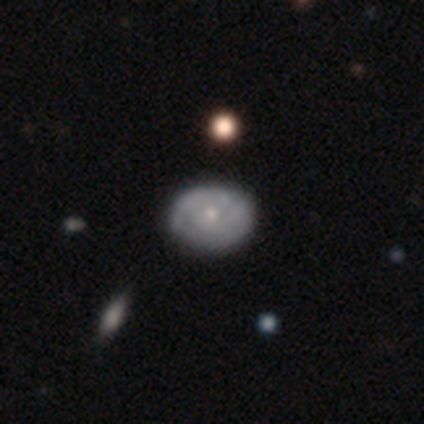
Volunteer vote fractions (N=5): Smooth or featured: featured or disk — 60% (smooth — 40%)
Edge-on disk: no — 67% (yes — 33%)
Bar: no — 100%
Spiral arms: yes — 100%
Spiral winding: tight — 50% (tied with medium — 50%)
Spiral arm count: can't tell — 100%
Bulge size: small — 100%
Merging: none — 80% (major disturbance — 20%)